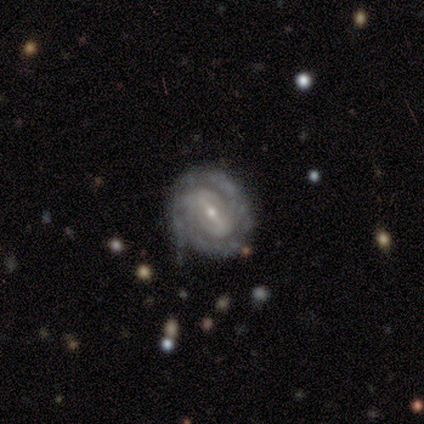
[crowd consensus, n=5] This appears to be a featured or disk galaxy (60%) with a strong bar (67%), 2 (67%) tight (100%) spiral arms (100%) and a small central bulge (100%). Merging: none (100%).